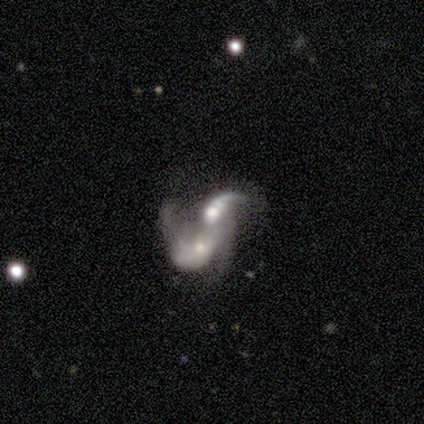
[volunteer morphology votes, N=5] Smooth or featured: smooth — 60% (featured or disk — 40%)
How rounded: in between — 100%
Merging: merger — 100%